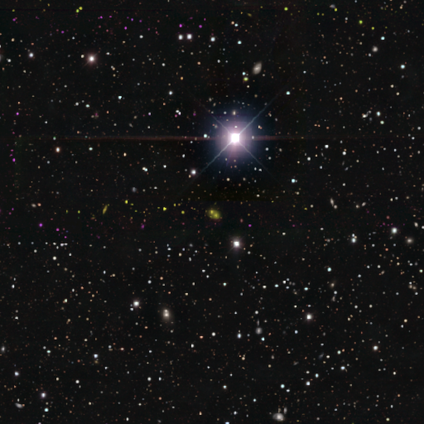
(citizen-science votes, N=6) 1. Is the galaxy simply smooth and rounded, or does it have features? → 100% star or artifact, 0% smooth, 0% featured or disk.